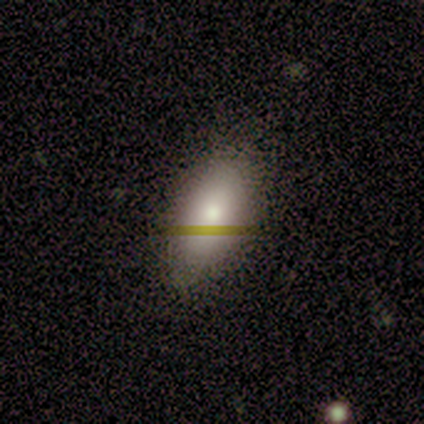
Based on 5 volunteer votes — Morphology: type=smooth (60%); roundness=in between (100%); merging=none (50%).